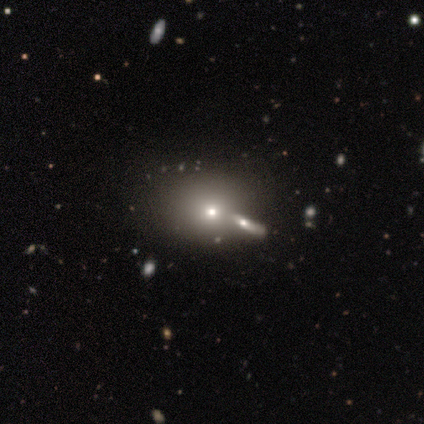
Overall: smooth (50%; featured or disk 25%). How rounded: round (50%, tied with in between). Merging: none (33%, tied with minor disturbance and merger).